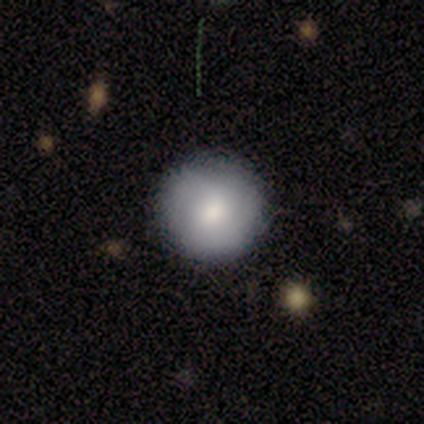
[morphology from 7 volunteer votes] Smooth or featured?
  - smooth: 100% *
  - featured or disk: 0%
  - star or artifact: 0%
How rounded?
  - round: 86% *
  - cigar-shaped: 14%
  - in between: 0%
Merging?
  - none: 71% *
  - minor disturbance: 29%
  - major disturbance: 0%
  - merger: 0%